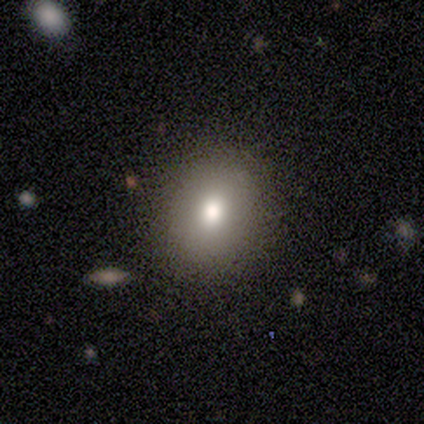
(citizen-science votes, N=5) This is clearly a smooth galaxy (100%). How rounded: likely round (60%). Merging: clearly none (100%).